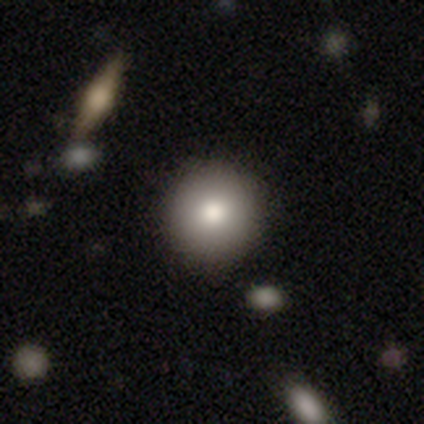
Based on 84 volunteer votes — Smooth or featured? smooth (75%)
How rounded? round (95%)
Merging? none (89%)